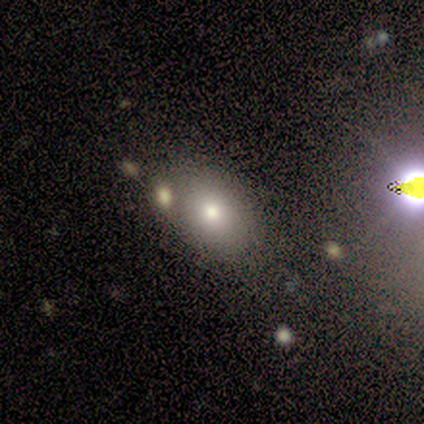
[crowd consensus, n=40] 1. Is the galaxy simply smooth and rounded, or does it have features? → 60% smooth, 22% star or artifact, 18% featured or disk.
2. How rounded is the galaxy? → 67% in between, 33% round, 0% cigar-shaped.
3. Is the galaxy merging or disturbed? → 52% none, 23% merger, 16% major disturbance, 10% minor disturbance.